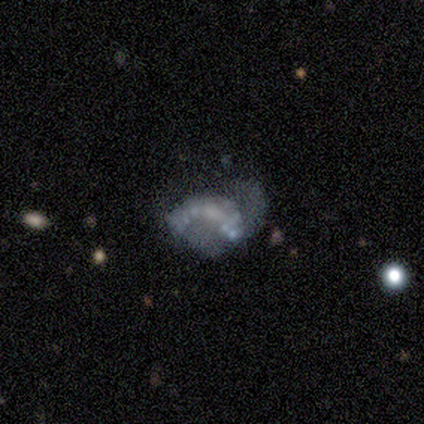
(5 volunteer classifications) Smooth or featured? featured or disk (60%)
Edge-on disk? no (100%)
Bar? no (67%)
Spiral arms? no (100%)
Bulge size? none (67%)
Merging? minor disturbance (60%)